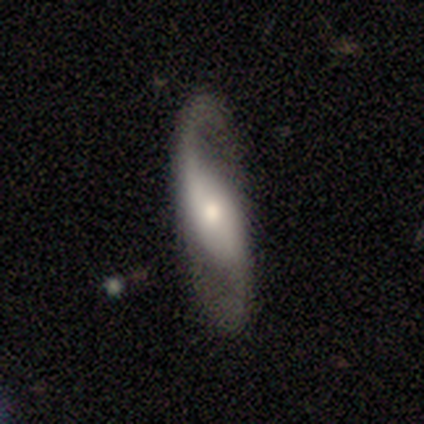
featured or disk 80%, smooth 10%, star or artifact 10%. Down the decision tree: edge-on disk — no (97%); bar — no (47%); spiral arms — yes (94%); spiral arm count — 2 (90%); spiral winding — loose (83%); bulge size — small (53%); merging — none (92%).